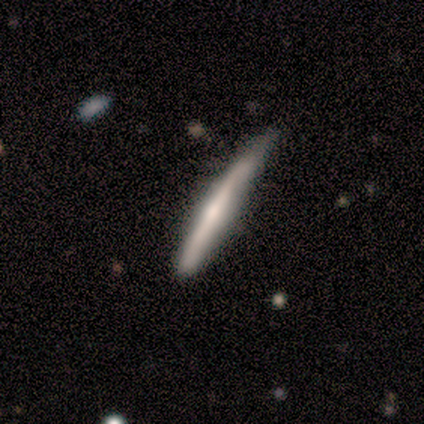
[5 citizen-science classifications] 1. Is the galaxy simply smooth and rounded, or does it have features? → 40% smooth (tied), 40% featured or disk (tied), 20% star or artifact.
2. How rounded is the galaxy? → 100% cigar-shaped, 0% round, 0% in between.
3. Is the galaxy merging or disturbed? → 50% none (tied), 50% minor disturbance (tied), 0% major disturbance, 0% merger.